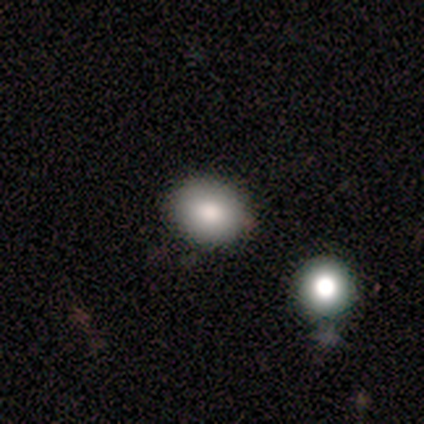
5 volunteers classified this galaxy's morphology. smooth 100%, featured or disk 0%, star or artifact 0%. Down the decision tree: how rounded — round (60%); merging — none (80%).